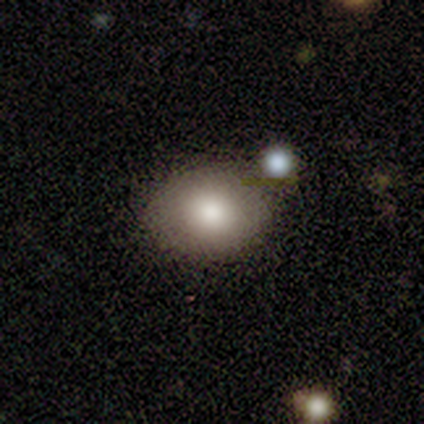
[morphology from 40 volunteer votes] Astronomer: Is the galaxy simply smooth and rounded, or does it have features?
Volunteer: smooth — 78%.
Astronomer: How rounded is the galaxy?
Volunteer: in between — 65%.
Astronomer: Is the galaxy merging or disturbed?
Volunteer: none — 47%.